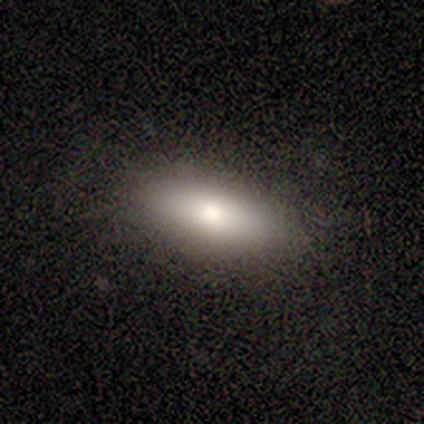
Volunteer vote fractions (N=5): smooth 80%, star or artifact 20%, featured or disk 0%. Down the decision tree: how rounded — in between (75%); merging — none (100%).